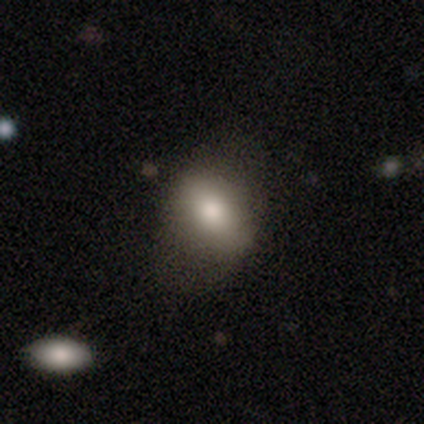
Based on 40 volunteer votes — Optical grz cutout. It shows a smooth galaxy with no disk features (70%) that is in between round and cigar-shaped (64%). Merging: none (49%).